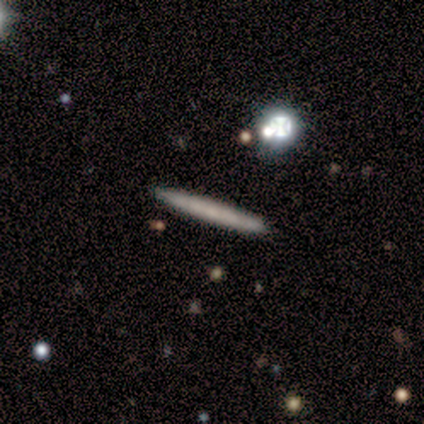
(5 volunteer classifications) smooth_or_featured: smooth (p=0.60) [alt: featured or disk p=0.40]
how_rounded: cigar-shaped (p=1.00)
merging: none (p=1.00)